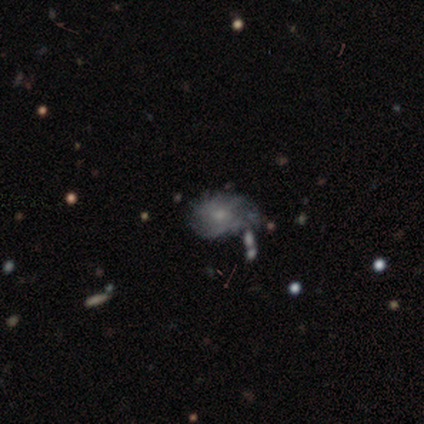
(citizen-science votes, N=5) Morphology: type=smooth (60%); roundness=round (67%); merging=none (40%, tied with minor disturbance).